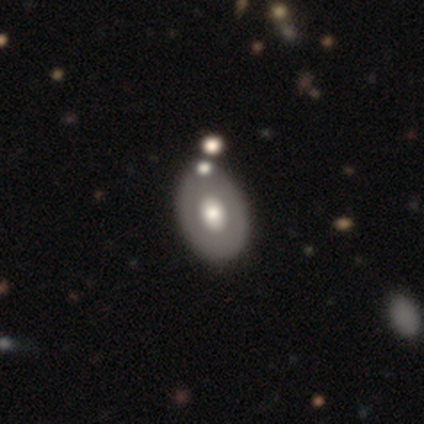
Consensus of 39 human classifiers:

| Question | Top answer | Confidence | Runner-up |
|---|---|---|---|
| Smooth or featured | smooth | 51% | featured or disk (49%) |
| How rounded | in between | 85% | round (15%) |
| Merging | none | 46% | merger (18%) |